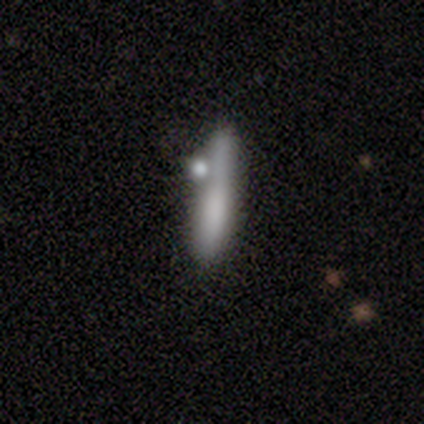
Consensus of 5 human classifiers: Q: Smooth or featured?
A: smooth (60%); runner-up: featured or disk (20%)
Q: How rounded?
A: cigar-shaped (100%)
Q: Merging?
A: none (100%)